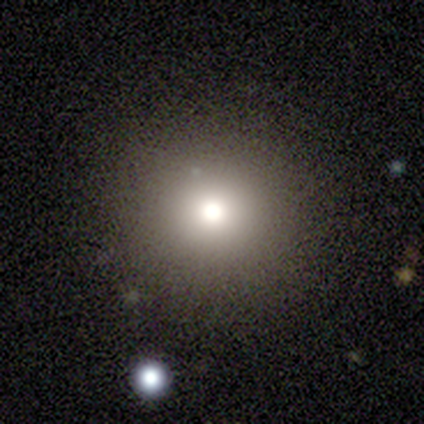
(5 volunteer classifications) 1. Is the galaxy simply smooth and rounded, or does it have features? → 60% smooth, 20% featured or disk, 20% star or artifact.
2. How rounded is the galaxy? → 100% round, 0% in between, 0% cigar-shaped.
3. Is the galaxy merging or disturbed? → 100% none, 0% minor disturbance, 0% major disturbance, 0% merger.